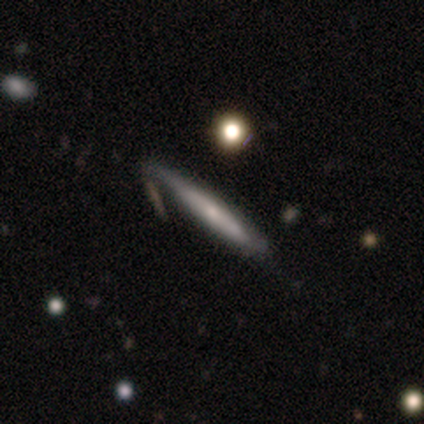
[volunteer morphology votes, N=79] featured or disk 63%, smooth 35%, star or artifact 1%. Down the decision tree: edge-on disk — yes (86%); edge-on bulge — rounded (53%); merging — none (27%).